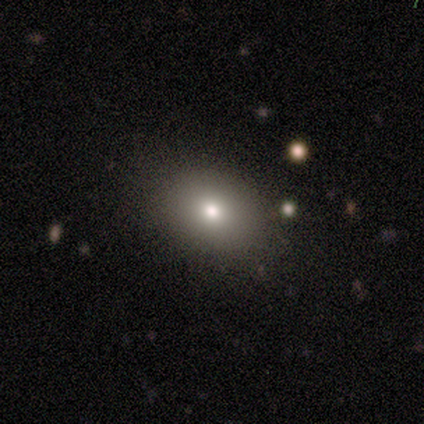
Q: Smooth or featured?
A: smooth (60%); runner-up: featured or disk (20%)
Q: How rounded?
A: round (67%); runner-up: in between (33%)
Q: Merging?
A: none (100%)